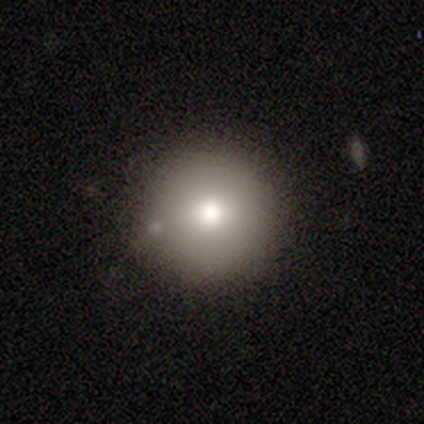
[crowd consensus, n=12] This appears to be a smooth galaxy with no disk features (92%) that is round (100%). Merging: none (100%).